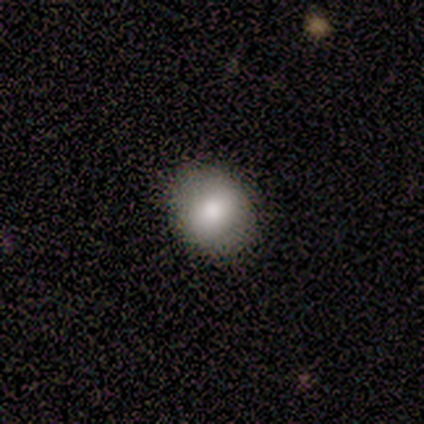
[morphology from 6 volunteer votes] Smooth or featured: smooth — 100%
How rounded: round — 67% (in between — 33%)
Merging: none — 83% (major disturbance — 17%)